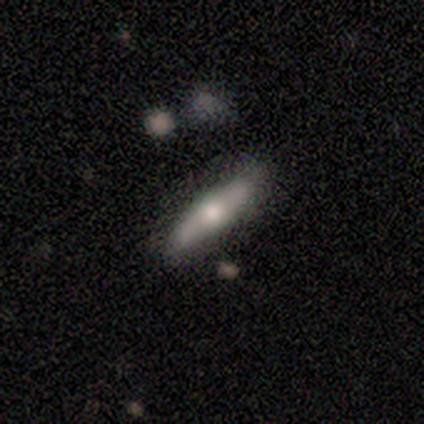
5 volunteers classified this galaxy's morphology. Q: Smooth or featured?
A: featured or disk (60%); runner-up: smooth (40%)
Q: Edge-on disk?
A: yes (67%); runner-up: no (33%)
Q: Edge-on bulge?
A: rounded (100%)
Q: Merging?
A: none (80%); runner-up: minor disturbance (20%)